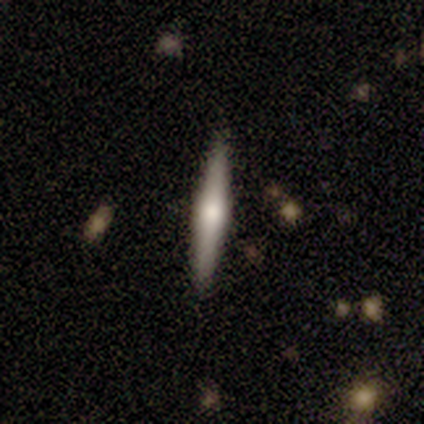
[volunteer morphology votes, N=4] featured or disk 100%, smooth 0%, star or artifact 0%. Down the decision tree: edge-on disk — yes (100%); edge-on bulge — rounded (100%); merging — none (100%).